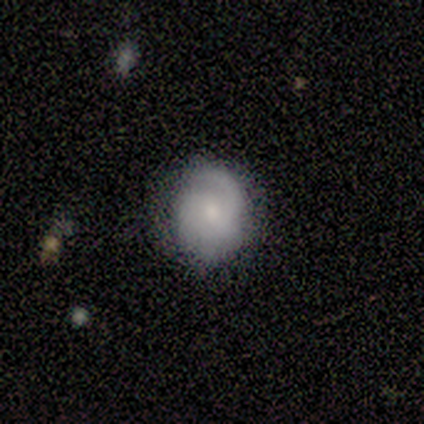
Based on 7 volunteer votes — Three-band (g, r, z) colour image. It shows a featured or disk galaxy (57%) with no bar (75%), 3 (50%) tight (50%, tied with medium) spiral arms (100%) and a small central bulge (75%). Merging: none (71%).